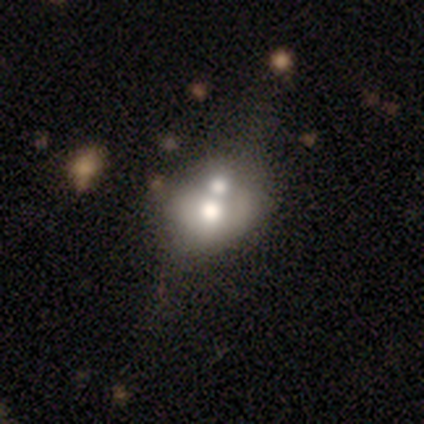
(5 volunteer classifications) Morphology: type=featured or disk (80%); edge-on=no (100%); bar=no (100%); spiral arms=no (75%); bulge=moderate (50%); merging=merger (80%).